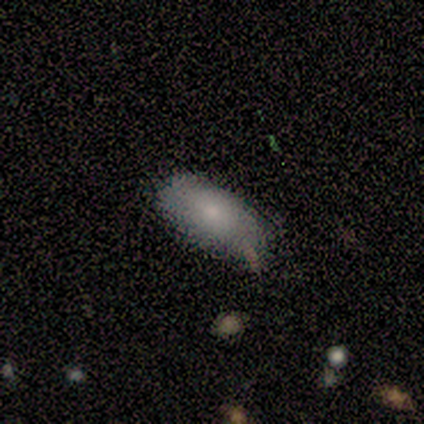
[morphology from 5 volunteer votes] Q: Smooth or featured?
A: smooth (60%); runner-up: featured or disk (40%)
Q: How rounded?
A: in between (100%)
Q: Merging?
A: none (60%); runner-up: minor disturbance (40%)